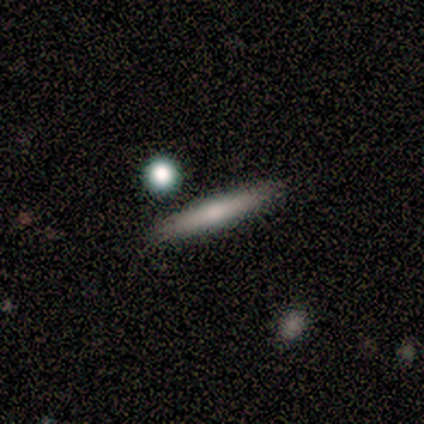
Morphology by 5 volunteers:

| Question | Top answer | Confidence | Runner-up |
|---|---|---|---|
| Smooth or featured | featured or disk | 60% | smooth (40%) |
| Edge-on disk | yes | 100% | — |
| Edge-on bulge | none | 67% | rounded (33%) |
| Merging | none | 60% | minor disturbance (20%) |